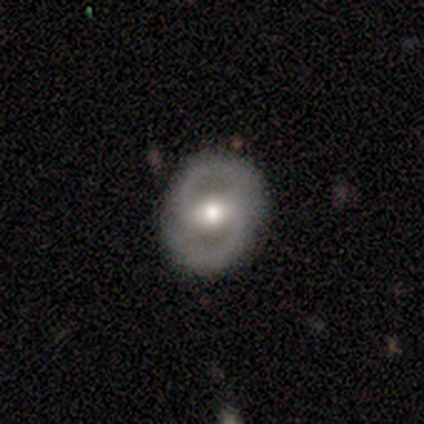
Q: Smooth or featured?
A: featured or disk (100%)
Q: Edge-on disk?
A: no (100%)
Q: Bar?
A: weak (50%); runner-up: strong (25%)
Q: Spiral arms?
A: yes (50%); tied with: no (50%)
Q: Spiral winding?
A: tight (50%); tied with: loose (50%)
Q: Spiral arm count?
A: 2 (50%); tied with: can't tell (50%)
Q: Bulge size?
A: moderate (75%); runner-up: large (25%)
Q: Merging?
A: none (75%); runner-up: minor disturbance (25%)